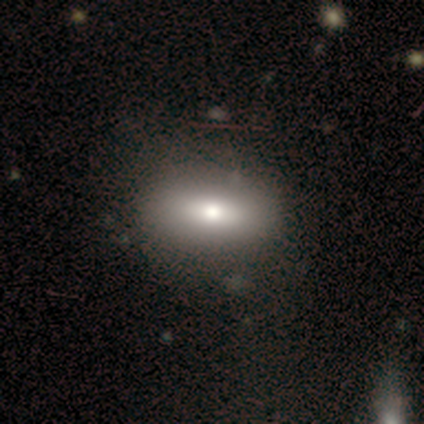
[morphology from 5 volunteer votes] Volunteers were most divided on "smooth or featured" (2-way tie): smooth: 40%, star or artifact: 40%, featured or disk: 20%. More confident: how rounded — in between (100%); merging — none (67%).